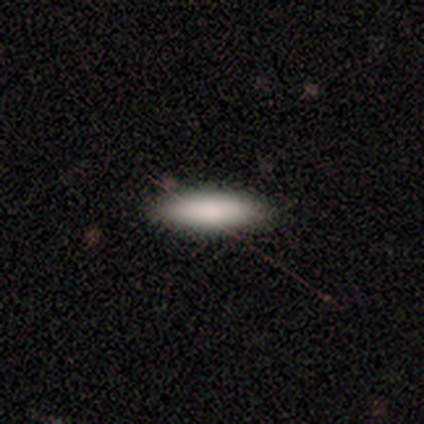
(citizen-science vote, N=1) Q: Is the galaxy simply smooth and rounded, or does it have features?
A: smooth — 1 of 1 (100%).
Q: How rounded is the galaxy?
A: cigar-shaped — 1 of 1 (100%).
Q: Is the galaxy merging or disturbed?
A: none — 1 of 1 (100%).